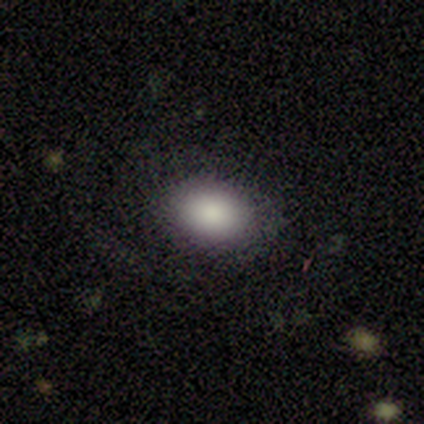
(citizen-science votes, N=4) smooth-or-featured: smooth: 50% (tied) | featured or disk: 50% (tied) | star or artifact: 0%
  how-rounded: in between: 100% | round: 0% | cigar-shaped: 0%
  merging: none: 75% | minor disturbance: 25% | major disturbance: 0% | merger: 0%